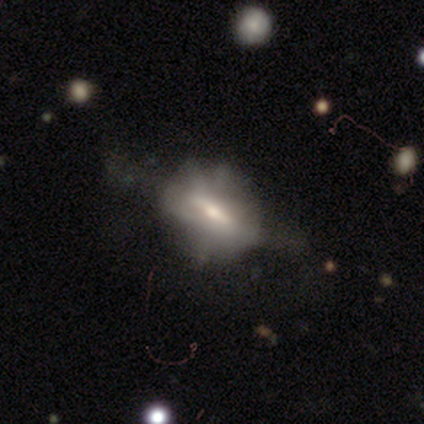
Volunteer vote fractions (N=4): Overall: featured or disk (75%). Edge-on disk: yes (67%; no 33%). Edge-on bulge: rounded (100%). Merging: none (50%; minor disturbance 25%).